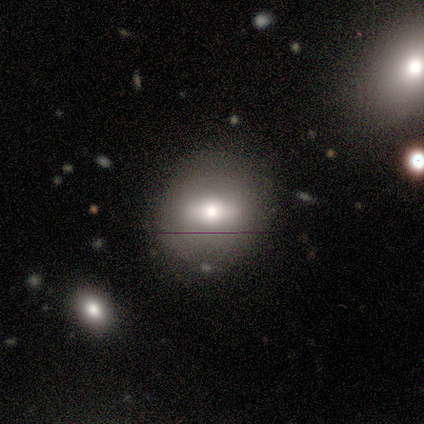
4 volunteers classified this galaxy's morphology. Smooth or featured: smooth — 50% (featured or disk — 25%)
How rounded: round — 50% (tied with in between — 50%)
Merging: none — 100%